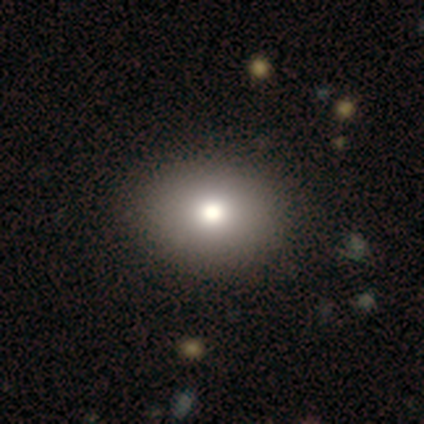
Morphology: type=smooth (50%, tied with featured or disk); roundness=round (50%, tied with in between); merging=none (100%).